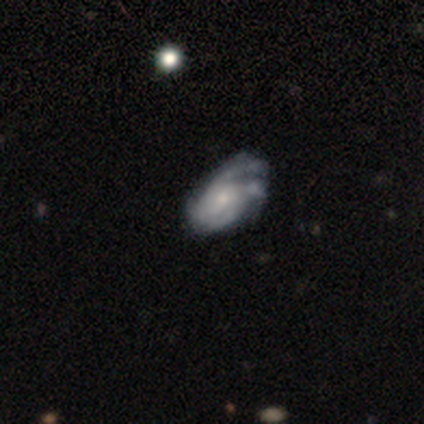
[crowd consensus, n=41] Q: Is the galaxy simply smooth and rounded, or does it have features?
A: featured or disk — 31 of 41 (76%).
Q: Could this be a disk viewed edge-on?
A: no — 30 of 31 (97%).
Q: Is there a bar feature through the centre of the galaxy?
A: no — 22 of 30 (73%).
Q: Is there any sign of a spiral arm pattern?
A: yes — 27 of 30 (90%).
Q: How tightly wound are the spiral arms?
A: tight — 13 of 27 (48%).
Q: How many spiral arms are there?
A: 2 — 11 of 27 (41%).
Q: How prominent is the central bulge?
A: moderate — 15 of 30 (50%).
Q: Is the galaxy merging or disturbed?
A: minor disturbance — 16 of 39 (41%).